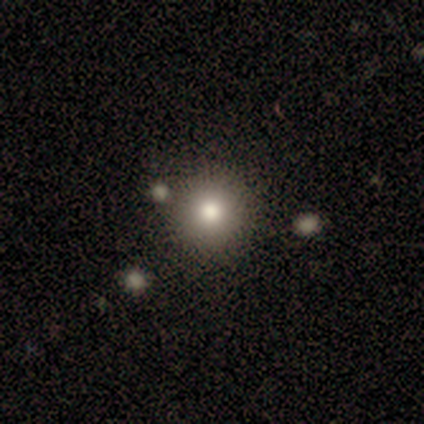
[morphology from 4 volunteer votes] Consensus on every question: smooth or featured — smooth (100%); how rounded — round (100%); merging — none (100%).